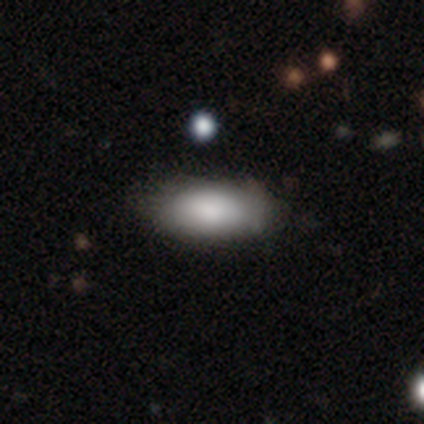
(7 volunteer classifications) Q: Smooth or featured?
A: smooth (100%)
Q: How rounded?
A: in between (86%); runner-up: cigar-shaped (14%)
Q: Merging?
A: none (100%)